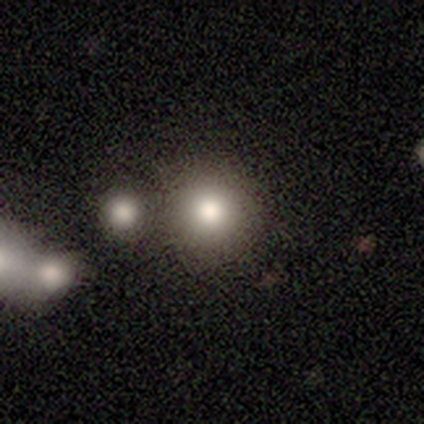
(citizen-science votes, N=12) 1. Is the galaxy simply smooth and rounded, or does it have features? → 58% smooth, 25% featured or disk, 17% star or artifact.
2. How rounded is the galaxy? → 100% round, 0% in between, 0% cigar-shaped.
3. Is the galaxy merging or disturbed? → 50% none, 40% merger, 10% major disturbance, 0% minor disturbance.